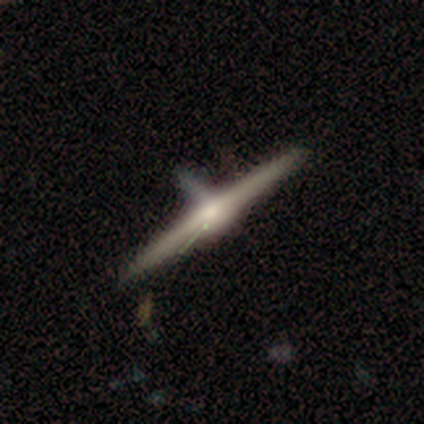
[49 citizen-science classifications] A featured or disk galaxy (80%) viewed edge-on (95%) with a rounded central bulge (86%). Merging: none (64%).